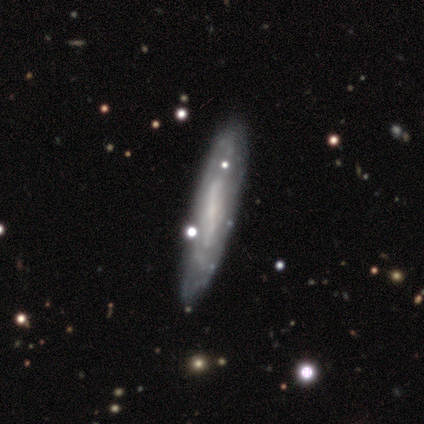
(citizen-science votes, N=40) Volunteers were most divided on "spiral winding" (3-way tie): tight: 33%, medium: 33%, loose: 33%. Remaining: spiral arm count — can't tell (89%); edge-on disk — no (68%); merging — none (67%); smooth or featured — featured or disk (62%); spiral arms — yes (53%); bulge size — small (47%); bar — no (41%).